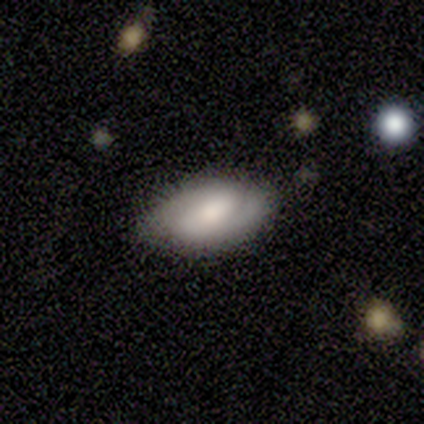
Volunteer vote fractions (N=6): Overall: smooth (67%). How rounded: in between (100%). Merging: none (60%; minor disturbance 40%).